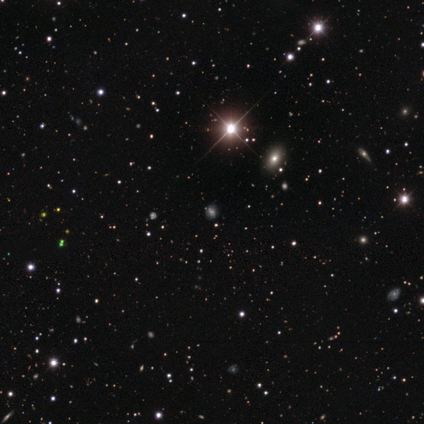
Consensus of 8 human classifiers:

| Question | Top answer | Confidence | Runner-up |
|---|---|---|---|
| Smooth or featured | star or artifact | 62% | smooth (38%) |